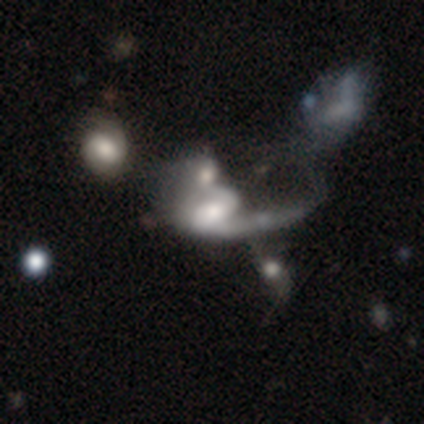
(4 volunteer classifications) Volunteers were most divided on "spiral arm count" (3-way tie): 1: 33%, 2: 33%, can't tell: 33%, 3: 0%, 4: 0%, more than 4: 0%. More confident: edge-on disk — no (100%); spiral arms — yes (100%); smooth or featured — featured or disk (75%); merging — merger (75%); bar — no (67%); spiral winding — loose (67%); bulge size — none (67%).